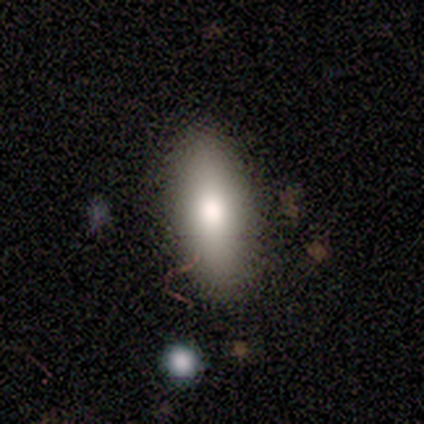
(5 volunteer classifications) smooth-or-featured: smooth: 80% | star or artifact: 20% | featured or disk: 0%
  how-rounded: in between: 100% | round: 0% | cigar-shaped: 0%
  merging: none: 100% | minor disturbance: 0% | major disturbance: 0% | merger: 0%